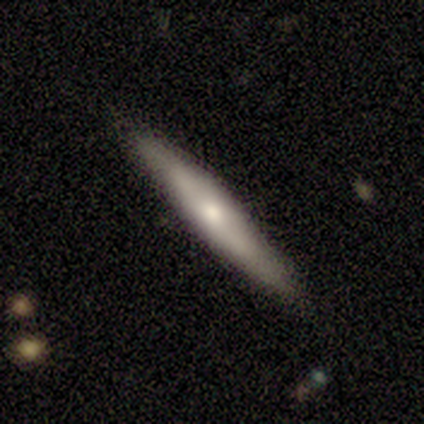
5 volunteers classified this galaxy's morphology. smooth_or_featured: smooth (p=0.60) [alt: featured or disk p=0.40]
how_rounded: cigar-shaped (p=0.67) [alt: in between p=0.33]
merging: none (p=1.00)